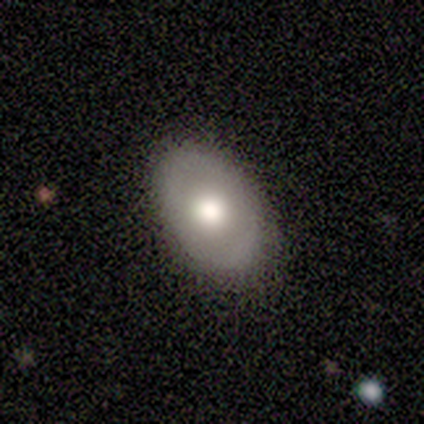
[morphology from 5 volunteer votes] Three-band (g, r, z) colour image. It shows a smooth galaxy with no disk features (80%) that is in between round and cigar-shaped (75%). Merging: none (80%).